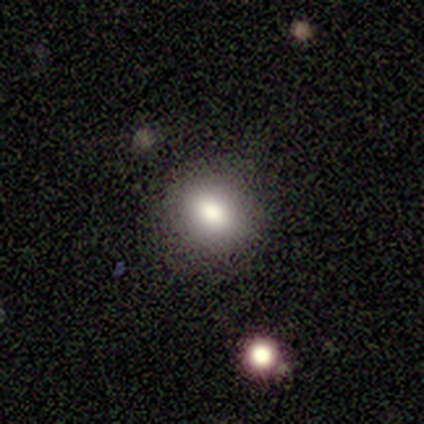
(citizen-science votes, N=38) Smooth or featured? smooth (66%)
How rounded? round (64%)
Merging? none (91%)